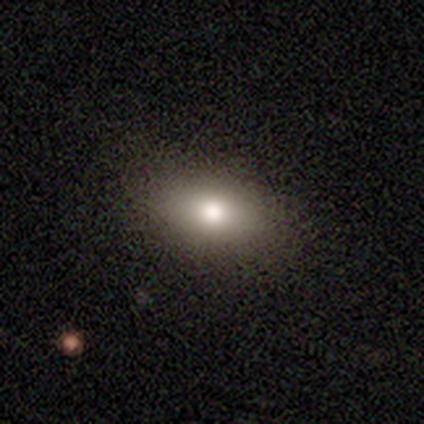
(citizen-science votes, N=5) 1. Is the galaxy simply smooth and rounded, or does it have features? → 100% smooth, 0% featured or disk, 0% star or artifact.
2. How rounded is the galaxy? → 60% in between, 40% round, 0% cigar-shaped.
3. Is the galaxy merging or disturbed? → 100% none, 0% minor disturbance, 0% major disturbance, 0% merger.